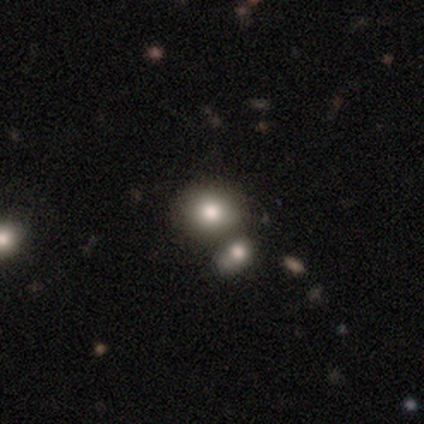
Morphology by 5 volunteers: type=smooth (80%); roundness=round (100%); merging=none (80%).